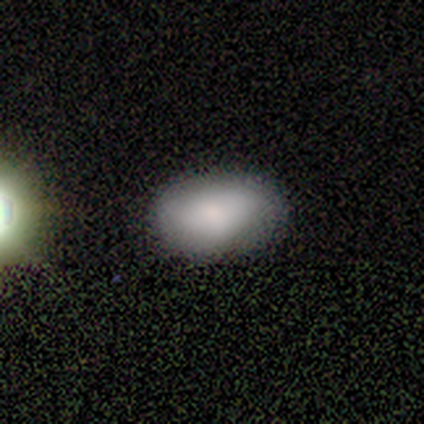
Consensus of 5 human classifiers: This appears to be a smooth galaxy with no disk features (80%) that is in between round and cigar-shaped (100%). Merging: none (60%).